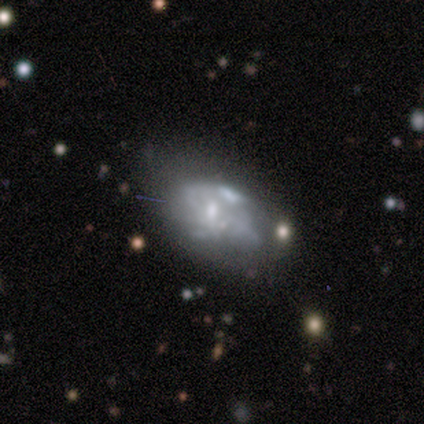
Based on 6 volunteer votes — A featured or disk galaxy (50%) with no bar (100%), no spiral arms (100%) and a moderate central bulge (33%, tied with small and none).

Vote fractions:
- Smooth or featured? featured or disk: 50% / star or artifact: 33% / smooth: 17%
- Edge-on disk? no: 100% / yes: 0%
- Bar? no: 100% / strong: 0% / weak: 0%
- Spiral arms? no: 100% / yes: 0%
- Bulge size? moderate: 33% (tied) / small: 33% (tied) / none: 33% (tied) / dominant: 0% / large: 0%
- Merging? none: 50% (tied) / major disturbance: 50% (tied) / minor disturbance: 0% / merger: 0%